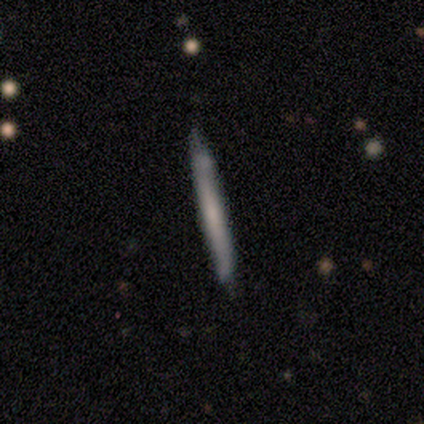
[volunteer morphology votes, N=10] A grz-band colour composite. It shows a smooth galaxy with no disk features (70%) that is cigar-shaped (100%). Merging: none (80%).